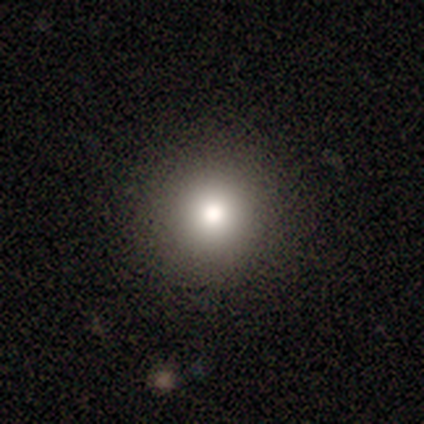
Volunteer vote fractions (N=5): Smooth or featured? smooth (60%)
How rounded? round (100%)
Merging? none (100%)